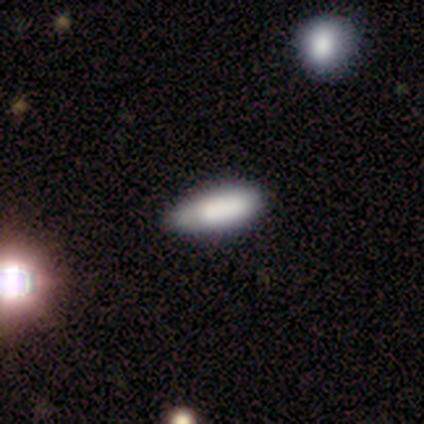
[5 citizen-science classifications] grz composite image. It shows a smooth galaxy with no disk features (100%) that is cigar-shaped (60%). Merging: none (60%).